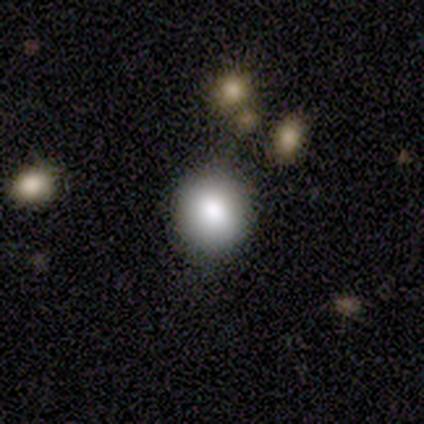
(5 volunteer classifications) A smooth galaxy with no disk features (80%) that is round (100%). Merging: none (100%).